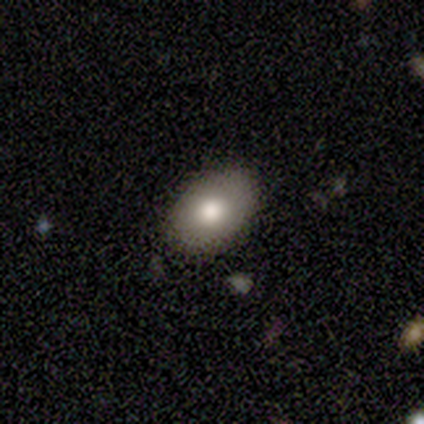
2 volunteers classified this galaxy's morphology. This is possibly a smooth galaxy (50%, tied with featured or disk). How rounded: clearly in between (100%). Merging: clearly none (100%).